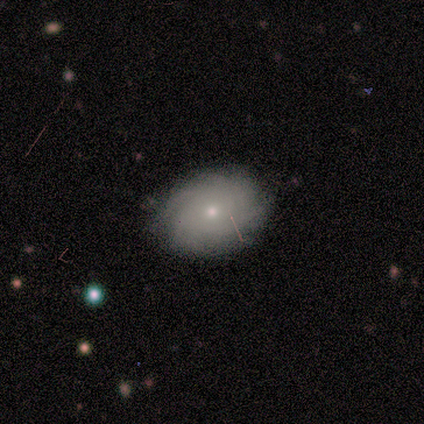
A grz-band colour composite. It shows a smooth galaxy with no disk features (50%, tied with featured or disk) that is in between round and cigar-shaped (75%). Merging: none (88%).